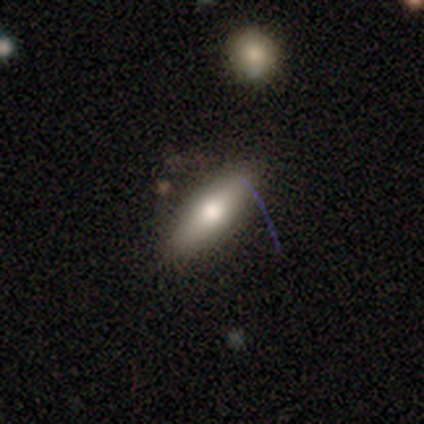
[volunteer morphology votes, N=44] Volunteers were most divided on "how rounded": in between: 52%, cigar-shaped: 44%, round: 4%. More confident: merging — none (83%); smooth or featured — smooth (61%).